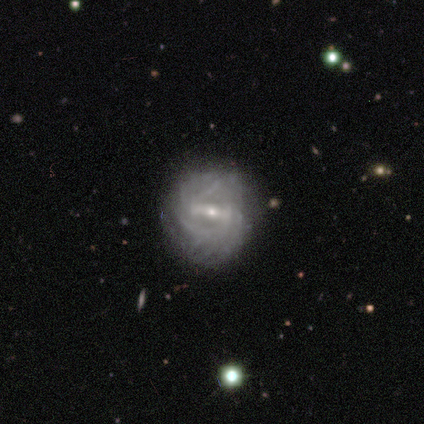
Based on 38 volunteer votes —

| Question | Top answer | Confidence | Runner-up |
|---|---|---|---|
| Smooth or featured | featured or disk | 95% | star or artifact (5%) |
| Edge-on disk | no | 97% | yes (3%) |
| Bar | weak | 49% | strong (43%) |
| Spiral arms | yes | 97% | no (3%) |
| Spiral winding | tight | 62% | medium (29%) |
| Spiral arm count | can't tell | 47% | 2 (32%) |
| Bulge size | small | 80% | moderate (17%) |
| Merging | none | 75% | minor disturbance (17%) |